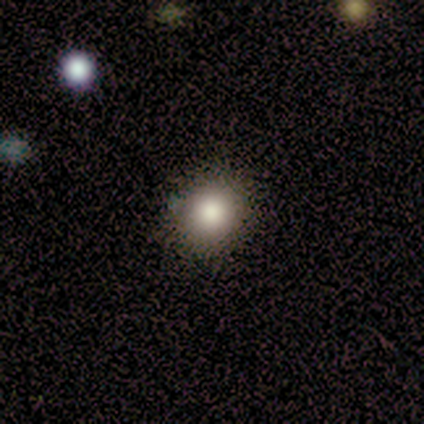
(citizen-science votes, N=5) Smooth or featured? smooth (100%)
How rounded? round (100%)
Merging? none (100%)